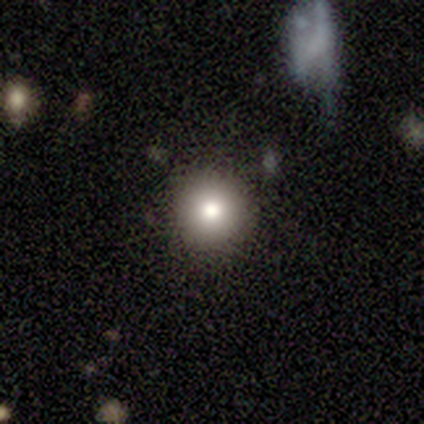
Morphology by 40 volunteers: Overall: smooth (85%). How rounded: round (91%). Merging: none (84%).